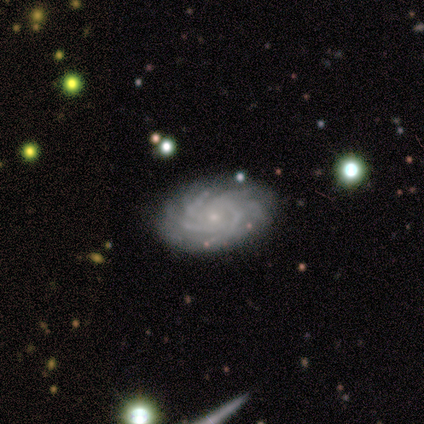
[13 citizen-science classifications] A featured or disk galaxy (100%) with no bar (100%), more than 4 (50%) tight (92%) spiral arms (100%) and a small central bulge (92%). Merging: none (100%).